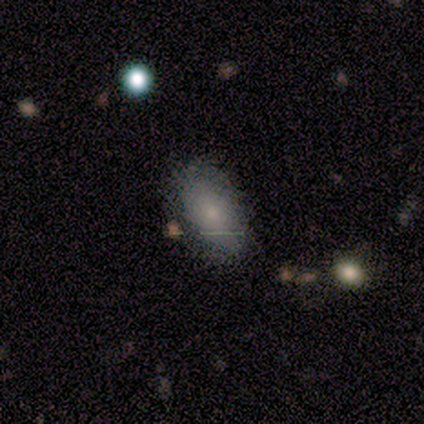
smooth-or-featured: smooth: 60% | star or artifact: 40% | featured or disk: 0%
  how-rounded: in between: 100% | round: 0% | cigar-shaped: 0%
  merging: none: 67% | merger: 33% | minor disturbance: 0% | major disturbance: 0%